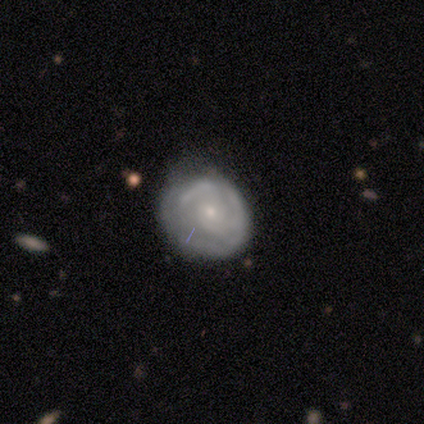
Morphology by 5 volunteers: type=featured or disk (60%); edge-on=no (100%); bar=no (67%); spiral arms=yes (67%); winding=tight (50%, tied with medium); arm count=3 (50%, tied with can't tell); bulge=moderate (33%, tied with small and none); merging=none (60%).